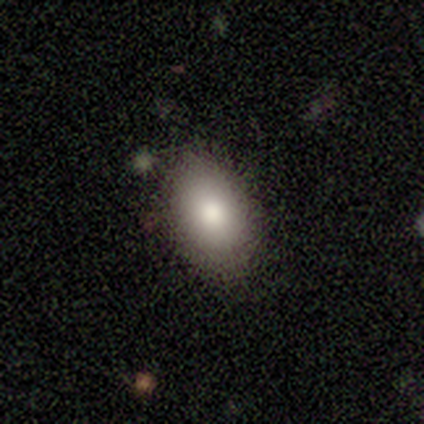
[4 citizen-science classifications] smooth-or-featured: smooth: 75% | featured or disk: 25% | star or artifact: 0%
  how-rounded: in between: 67% | round: 33% | cigar-shaped: 0%
  merging: none: 75% | major disturbance: 25% | minor disturbance: 0% | merger: 0%